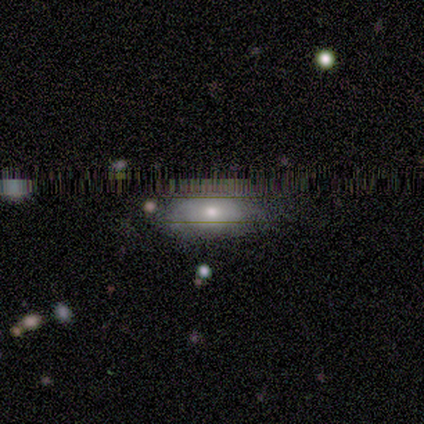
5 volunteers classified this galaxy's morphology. Overall: smooth (60%; featured or disk 20%). How rounded: in between (100%). Merging: none (50%, tied with major disturbance).